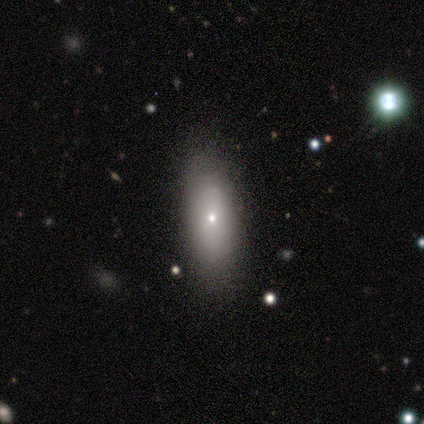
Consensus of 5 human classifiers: This appears to be a smooth galaxy with no disk features (60%) that is in between round and cigar-shaped (67%). Merging: none (75%).